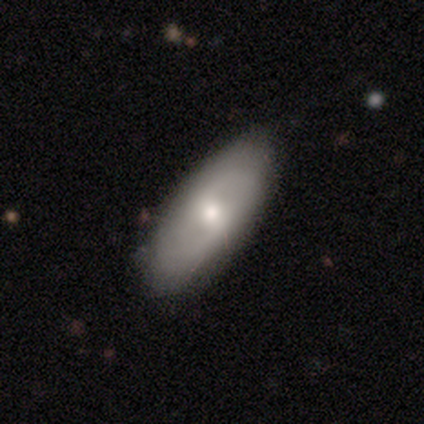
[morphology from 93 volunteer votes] Q: Smooth or featured?
A: smooth (49%); runner-up: featured or disk (45%)
Q: How rounded?
A: in between (85%); runner-up: cigar-shaped (15%)
Q: Merging?
A: none (77%); runner-up: minor disturbance (19%)